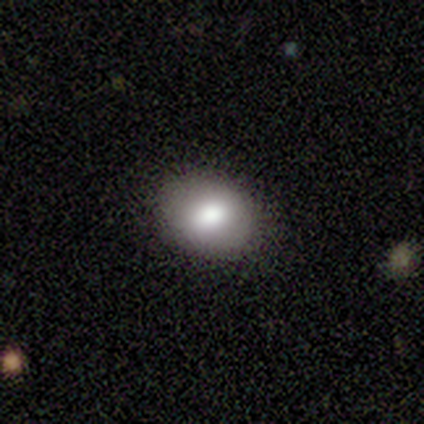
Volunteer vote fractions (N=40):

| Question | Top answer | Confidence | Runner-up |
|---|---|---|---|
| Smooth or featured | smooth | 80% | featured or disk (20%) |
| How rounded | in between | 66% | round (34%) |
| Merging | none | 88% | minor disturbance (10%) |